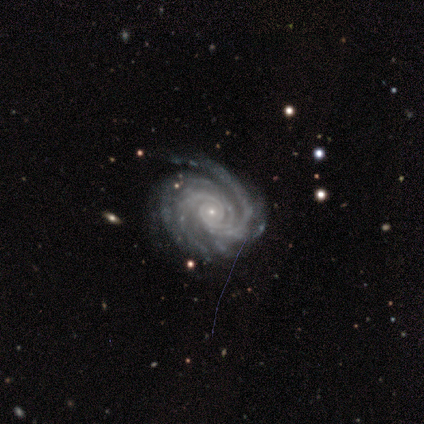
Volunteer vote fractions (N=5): featured or disk 100%, smooth 0%, star or artifact 0%. Down the decision tree: edge-on disk — no (100%); bar — no (80%); spiral arms — yes (100%); spiral arm count — 3 (60%); spiral winding — tight (60%); bulge size — small (100%); merging — none (80%).